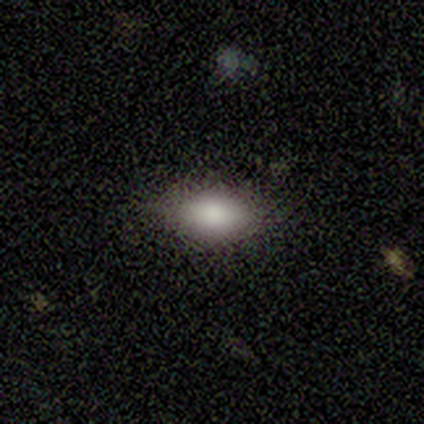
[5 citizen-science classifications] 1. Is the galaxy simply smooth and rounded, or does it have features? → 100% smooth, 0% featured or disk, 0% star or artifact.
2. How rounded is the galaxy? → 100% in between, 0% round, 0% cigar-shaped.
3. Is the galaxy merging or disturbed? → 80% none, 20% minor disturbance, 0% major disturbance, 0% merger.